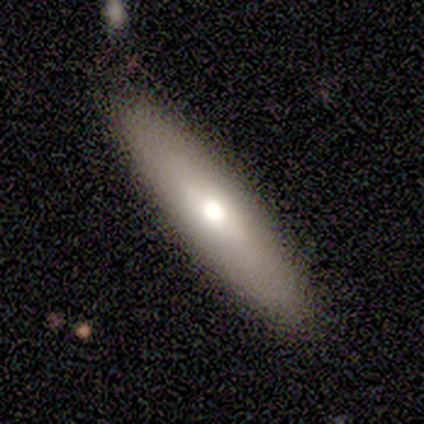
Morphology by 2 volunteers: A smooth galaxy with no disk features (50%, tied with star or artifact) that is cigar-shaped (100%).

Vote fractions:
- Smooth or featured? smooth: 50% (tied) / star or artifact: 50% (tied) / featured or disk: 0%
- How rounded? cigar-shaped: 100% / round: 0% / in between: 0%
- Merging? none: 100% / minor disturbance: 0% / major disturbance: 0% / merger: 0%